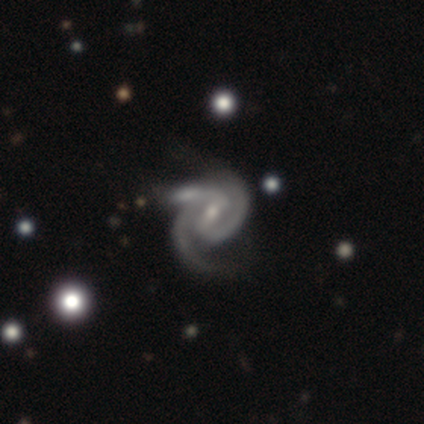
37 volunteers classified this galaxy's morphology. Smooth or featured? featured or disk (92%)
Edge-on disk? no (100%)
Bar? weak (47%)
Spiral arms? yes (100%)
Spiral winding? tight (50%)
Spiral arm count? 2 (68%)
Bulge size? small (59%)
Merging? none (50%)